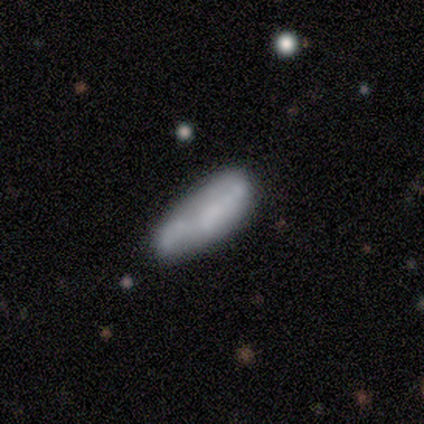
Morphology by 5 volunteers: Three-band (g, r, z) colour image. It shows a smooth galaxy with no disk features (60%) that is cigar-shaped (100%). Merging: none (40%, tied with minor disturbance).